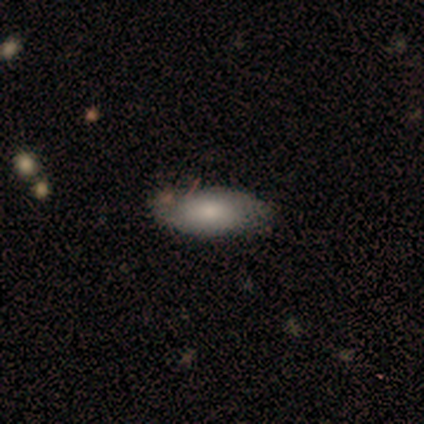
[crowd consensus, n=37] A smooth galaxy with no disk features (78%) that is in between round and cigar-shaped (83%).

Vote fractions:
- Smooth or featured? smooth: 78% / featured or disk: 19% / star or artifact: 3%
- How rounded? in between: 83% / cigar-shaped: 17% / round: 0%
- Merging? none: 64% / minor disturbance: 25% / merger: 8% / major disturbance: 3%